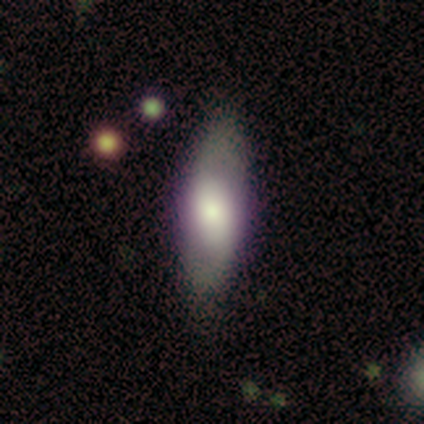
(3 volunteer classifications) Smooth or featured? 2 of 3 (67%) said featured or disk. Edge-on disk? 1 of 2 (50%, tied with no) said yes. Edge-on bulge? 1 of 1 (100%) said rounded. Merging? 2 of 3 (67%) said none.